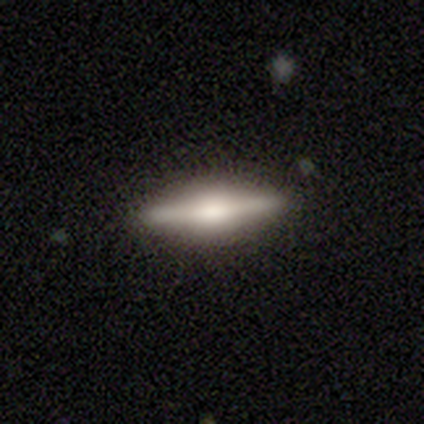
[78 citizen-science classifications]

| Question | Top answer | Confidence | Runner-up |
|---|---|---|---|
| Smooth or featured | featured or disk | 78% | smooth (21%) |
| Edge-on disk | yes | 97% | no (3%) |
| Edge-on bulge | rounded | 61% | boxy (39%) |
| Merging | none | 45% | minor disturbance (4%) |